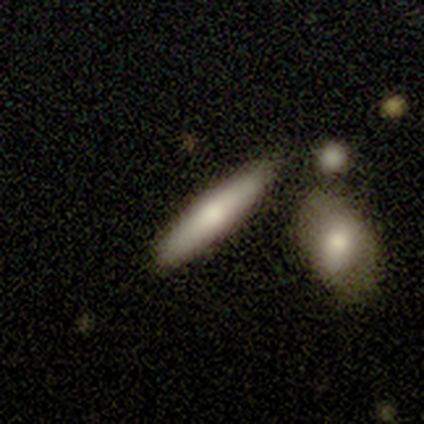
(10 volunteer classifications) Volunteers were most divided on "how rounded": cigar-shaped: 71%, in between: 29%, round: 0%. More confident: merging — none (78%); smooth or featured — smooth (70%).